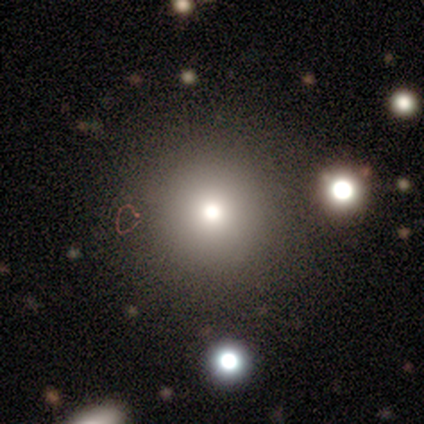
Morphology: type=smooth (70%); roundness=round (100%); merging=none (80%).